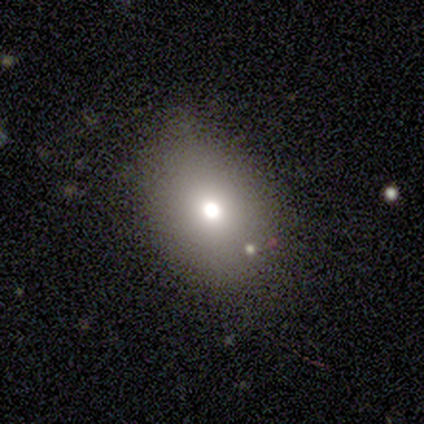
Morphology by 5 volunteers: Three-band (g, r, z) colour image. It shows a smooth galaxy with no disk features (60%) that is in between round and cigar-shaped (67%). Merging: none (80%).